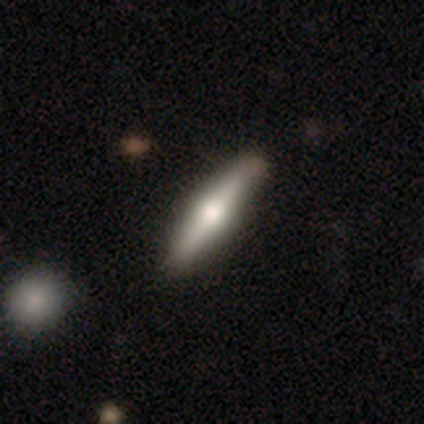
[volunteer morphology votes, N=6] type=featured or disk (83%); edge-on=yes (80%); edge-on bulge=rounded (100%); merging=none (80%).